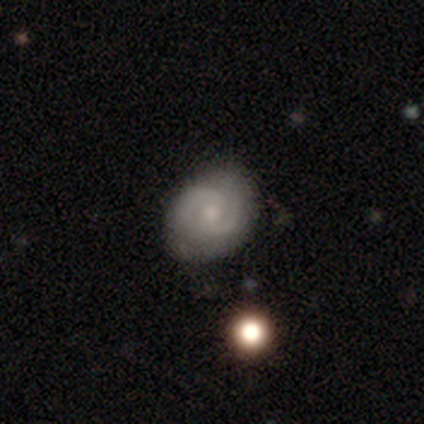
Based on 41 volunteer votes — Smooth or featured?
  - featured or disk: 76% *
  - smooth: 22%
  - star or artifact: 2%
Edge-on disk?
  - no: 100% *
  - yes: 0%
Bar?
  - no: 55% *
  - weak: 39%
  - strong: 6%
Spiral arms?
  - yes: 97% *
  - no: 3%
Spiral winding?
  - tight: 53% *
  - medium: 43%
  - loose: 3%
Spiral arm count?
  - 2: 87% *
  - can't tell: 7%
  - 1: 3%
  - more than 4: 3%
  - 3: 0%
  - 4: 0%
Bulge size?
  - small: 48% *
  - moderate: 45%
  - large: 3%
  - none: 3%
  - dominant: 0%
Merging?
  - none: 78% *
  - minor disturbance: 20%
  - major disturbance: 2%
  - merger: 0%